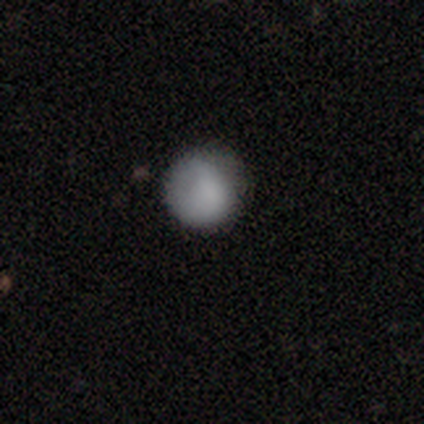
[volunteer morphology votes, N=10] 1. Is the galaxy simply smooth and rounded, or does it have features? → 90% smooth, 10% star or artifact, 0% featured or disk.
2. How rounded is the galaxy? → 78% round, 22% in between, 0% cigar-shaped.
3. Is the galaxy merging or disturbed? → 44% none (tied), 44% minor disturbance (tied), 11% merger, 0% major disturbance.